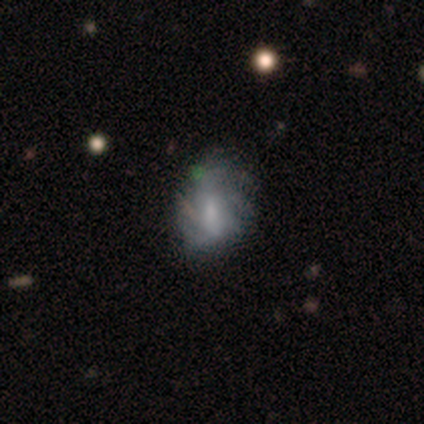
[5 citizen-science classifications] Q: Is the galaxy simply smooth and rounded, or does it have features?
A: smooth — 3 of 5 (60%).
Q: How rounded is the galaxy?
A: in between — 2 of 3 (67%).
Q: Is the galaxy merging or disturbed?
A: minor disturbance — 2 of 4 (50%).